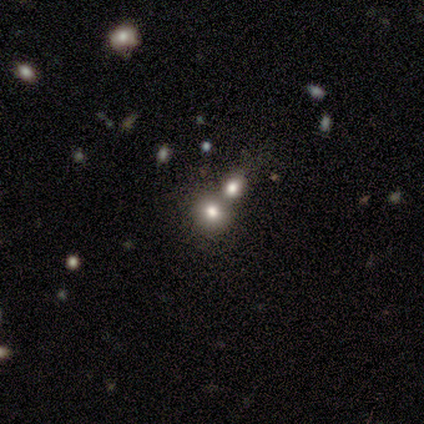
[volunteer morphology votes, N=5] Smooth or featured? 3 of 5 (60%) said smooth. How rounded? 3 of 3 (100%) said round. Merging? 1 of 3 (33%, tied with minor disturbance and merger) said none.